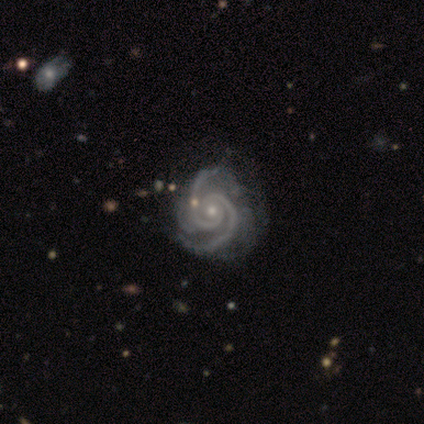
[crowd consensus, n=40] Smooth or featured? featured or disk (98%)
Edge-on disk? no (100%)
Bar? no (79%)
Spiral arms? yes (100%)
Spiral winding? tight (56%)
Spiral arm count? 2 (87%)
Bulge size? small (72%)
Merging? none (51%)